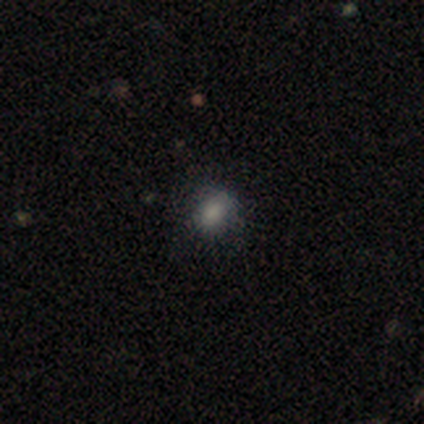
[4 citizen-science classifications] Smooth or featured?
  - smooth: 100% *
  - featured or disk: 0%
  - star or artifact: 0%
How rounded?
  - round: 50% * (tied)
  - in between: 50% * (tied)
  - cigar-shaped: 0%
Merging?
  - none: 75% *
  - minor disturbance: 25%
  - major disturbance: 0%
  - merger: 0%